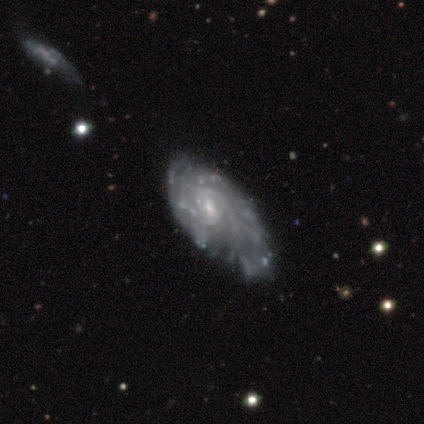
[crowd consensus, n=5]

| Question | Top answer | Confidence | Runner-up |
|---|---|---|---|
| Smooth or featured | featured or disk | 80% | smooth (20%) |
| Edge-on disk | no | 100% | — |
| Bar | weak | 50% | strong (25%) |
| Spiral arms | yes | 100% | — |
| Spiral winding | tight | 75% | loose (25%) |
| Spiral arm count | can't tell | 50% | 2 (25%) |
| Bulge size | small | 75% | moderate (25%) |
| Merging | minor disturbance | 40% | tied: major disturbance (40%) |